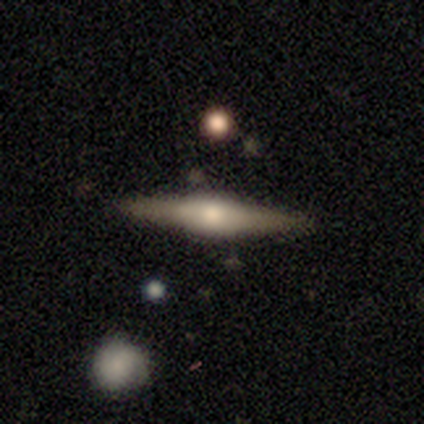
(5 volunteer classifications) Volunteers were most divided on "smooth or featured": smooth: 60%, featured or disk: 40%, star or artifact: 0%. More confident: how rounded — cigar-shaped (100%); merging — none (100%).